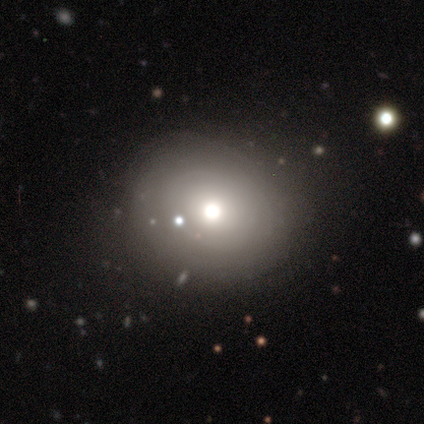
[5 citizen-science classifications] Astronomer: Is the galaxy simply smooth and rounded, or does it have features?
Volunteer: smooth — 60% (runner-up: star or artifact, 40%).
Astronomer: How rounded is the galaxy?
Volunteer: round — 100%.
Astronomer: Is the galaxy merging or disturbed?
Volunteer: none — 100%.